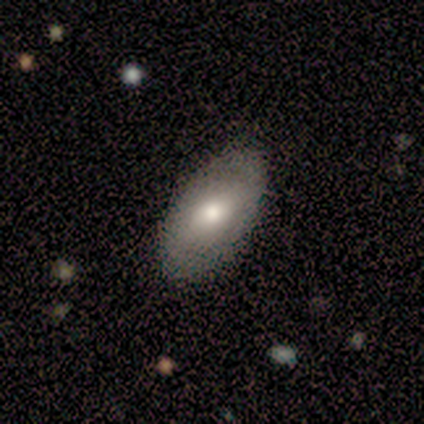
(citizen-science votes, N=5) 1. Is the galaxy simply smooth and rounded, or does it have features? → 40% smooth (tied), 40% featured or disk (tied), 20% star or artifact.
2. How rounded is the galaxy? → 100% in between, 0% round, 0% cigar-shaped.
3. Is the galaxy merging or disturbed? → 75% none, 25% major disturbance, 0% minor disturbance, 0% merger.